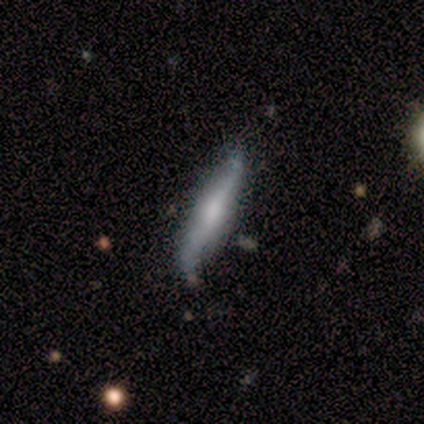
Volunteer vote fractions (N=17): A featured or disk galaxy (59%) viewed edge-on (60%) with a rounded central bulge (83%).

Vote fractions:
- Smooth or featured? featured or disk: 59% / smooth: 41% / star or artifact: 0%
- Edge-on disk? yes: 60% / no: 40%
- Edge-on bulge? rounded: 83% / boxy: 17% / none: 0%
- Merging? none: 82% / minor disturbance: 12% / major disturbance: 6% / merger: 0%